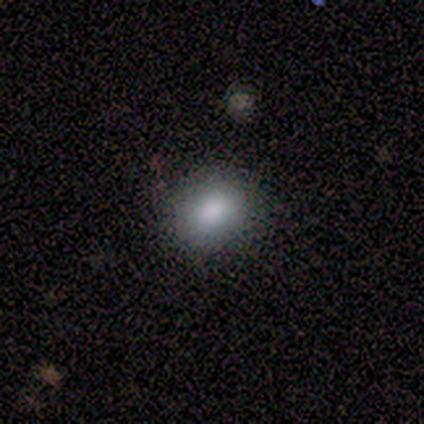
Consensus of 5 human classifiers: Overall: smooth (80%). How rounded: in between (75%). Merging: none (100%).